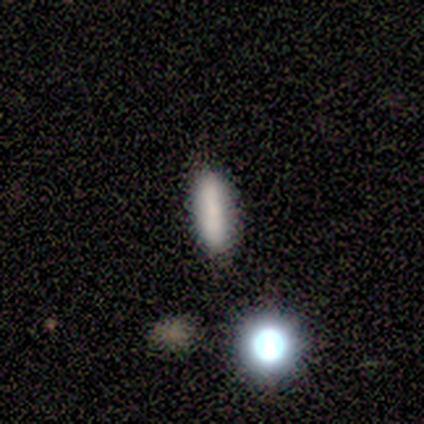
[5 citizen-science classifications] This is clearly a smooth galaxy (80%). How rounded: likely in between (75%). Merging: clearly none (100%).